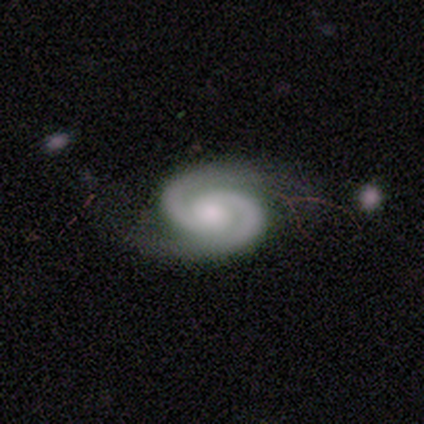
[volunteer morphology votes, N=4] Overall: featured or disk (75%). Edge-on disk: no (100%). Bar: no (67%; weak 33%). Spiral arms: yes (100%). Spiral arm count: 2 (100%). Spiral winding: medium (67%; tight 33%). Bulge size: small (67%; moderate 33%). Merging: none (67%; minor disturbance 33%).